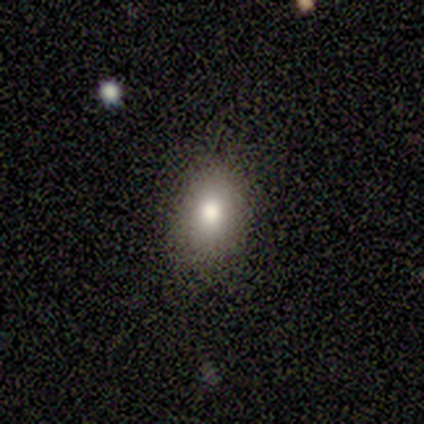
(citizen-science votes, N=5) smooth_or_featured: smooth (p=1.00)
how_rounded: in between (p=1.00)
merging: none (p=0.60) [alt: minor disturbance p=0.40]